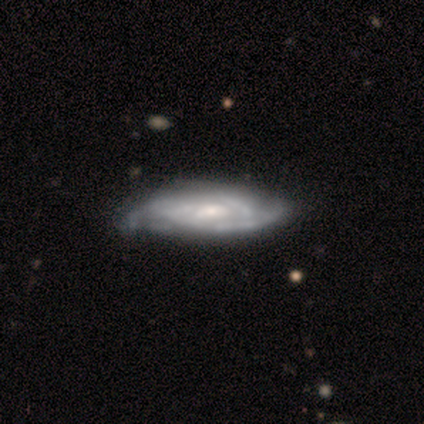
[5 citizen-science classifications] Smooth or featured? 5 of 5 (100%) said featured or disk. Edge-on disk? 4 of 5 (80%) said no. Bar? 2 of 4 (50%, tied with weak) said strong. Spiral arms? 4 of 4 (100%) said yes. Spiral winding? 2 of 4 (50%, tied with medium) said tight. Spiral arm count? 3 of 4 (75%) said can't tell. Bulge size? 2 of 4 (50%, tied with small) said moderate. Merging? 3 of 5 (60%) said minor disturbance.